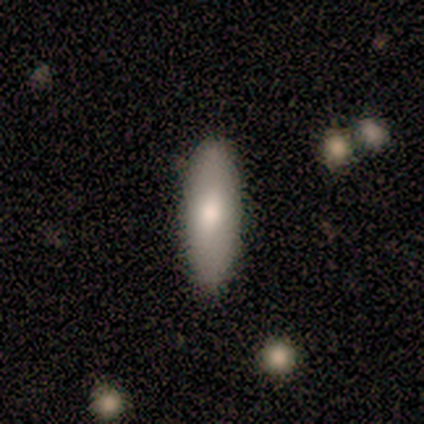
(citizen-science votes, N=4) This appears to be a smooth galaxy with no disk features (75%) that is cigar-shaped (67%). Merging: none (50%, tied with minor disturbance).